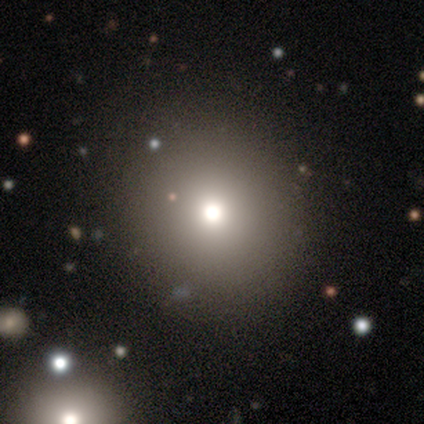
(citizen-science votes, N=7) A smooth galaxy with no disk features (86%) that is round (67%).

Vote fractions:
- Smooth or featured? smooth: 86% / featured or disk: 14% / star or artifact: 0%
- How rounded? round: 67% / in between: 33% / cigar-shaped: 0%
- Merging? none: 100% / minor disturbance: 0% / major disturbance: 0% / merger: 0%